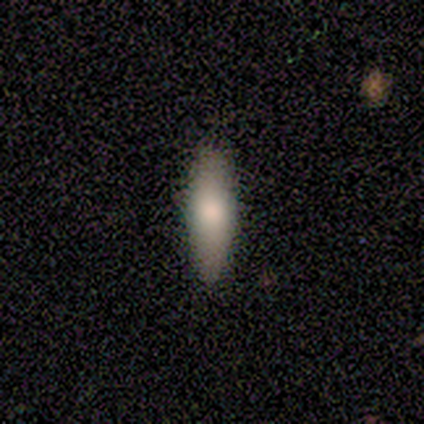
smooth-or-featured: smooth: 67% | featured or disk: 28% | star or artifact: 5%
  how-rounded: in between: 46% (tied) | cigar-shaped: 46% (tied) | round: 8%
  merging: none: 62% | minor disturbance: 5% | major disturbance: 0% | merger: 0%